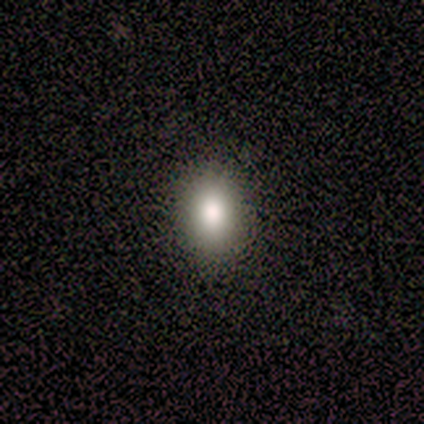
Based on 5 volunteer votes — Volunteers were most divided on "how rounded": in between: 50%, round: 25%, cigar-shaped: 25%. More confident: merging — none (100%); smooth or featured — smooth (80%).